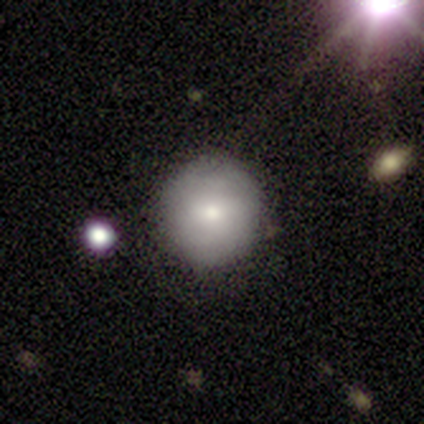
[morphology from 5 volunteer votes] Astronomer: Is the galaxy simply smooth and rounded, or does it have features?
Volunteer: smooth — 80%.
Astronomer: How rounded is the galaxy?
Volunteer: round — 100%.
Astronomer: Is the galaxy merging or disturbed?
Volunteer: none — 60% (runner-up: minor disturbance, 40%).